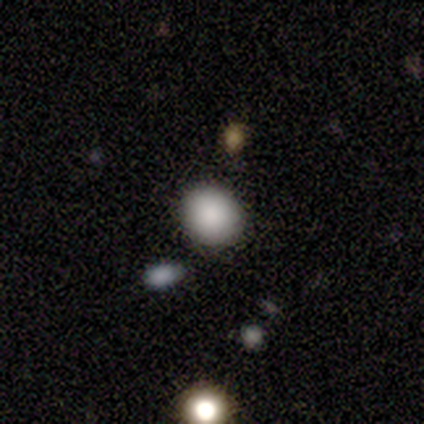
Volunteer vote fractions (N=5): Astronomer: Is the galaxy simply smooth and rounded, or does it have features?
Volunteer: smooth — 100%.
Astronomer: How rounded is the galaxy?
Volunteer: round — 80%.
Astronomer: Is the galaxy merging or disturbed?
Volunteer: none — 80%.